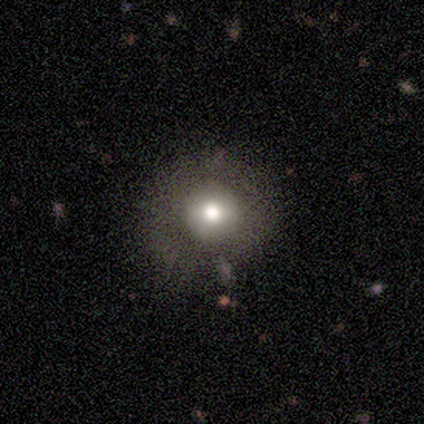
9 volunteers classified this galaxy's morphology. type=smooth (56%); roundness=round (100%); merging=none (62%).